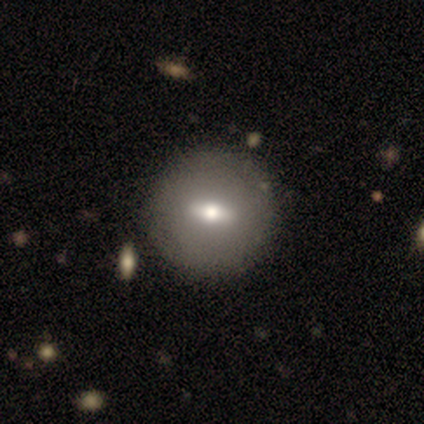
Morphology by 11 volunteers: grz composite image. It shows a featured or disk galaxy (73%) with a strong bar (50%), no spiral arms (100%) and a moderate central bulge (67%). Merging: none (100%).